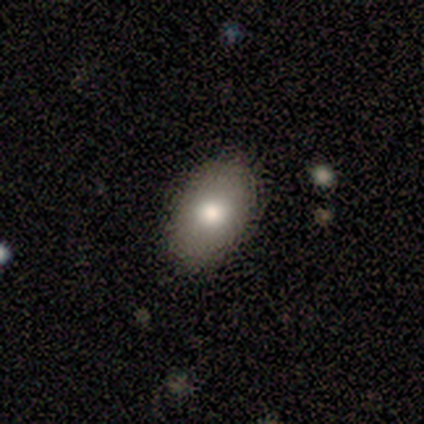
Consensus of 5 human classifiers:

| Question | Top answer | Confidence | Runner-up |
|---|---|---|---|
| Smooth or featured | smooth | 100% | — |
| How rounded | in between | 80% | round (20%) |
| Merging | none | 100% | — |